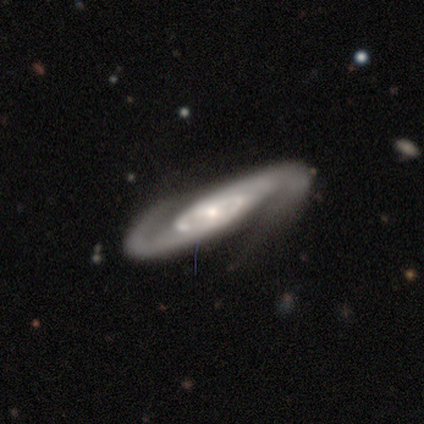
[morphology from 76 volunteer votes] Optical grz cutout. It shows a featured or disk galaxy (97%) with no bar (79%), 2 (95%) medium (49%) spiral arms (100%) and a small central bulge (63%). Merging: none (35%).